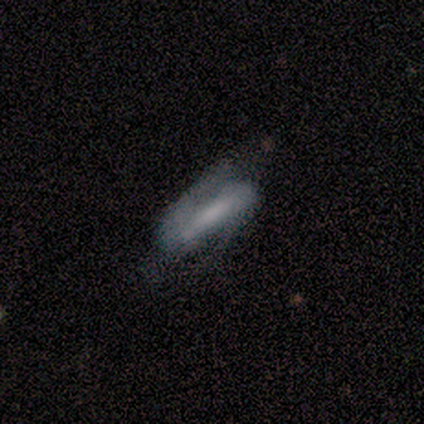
Smooth or featured? smooth (56%)
How rounded? cigar-shaped (60%)
Merging? none (56%)